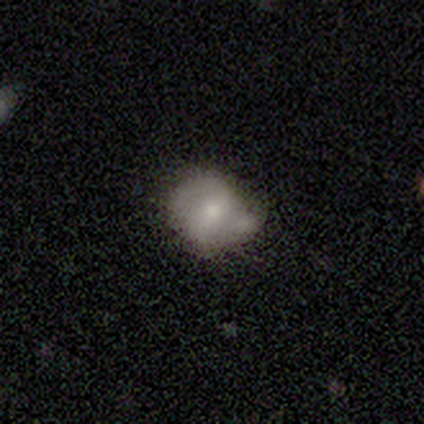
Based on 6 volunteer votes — A smooth galaxy with no disk features (83%) that is round (80%). Merging: none (50%).